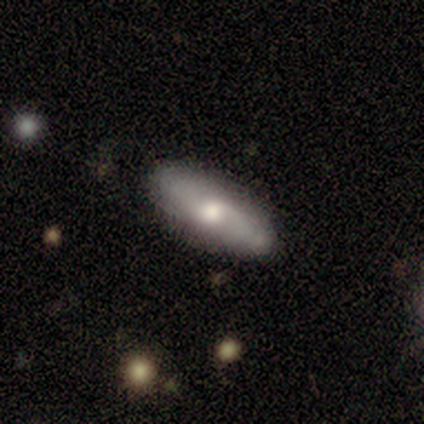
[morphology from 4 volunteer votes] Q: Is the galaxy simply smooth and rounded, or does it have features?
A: smooth — 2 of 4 (50%).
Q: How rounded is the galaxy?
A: in between — 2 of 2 (100%).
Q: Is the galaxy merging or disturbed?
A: none — 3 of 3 (100%).